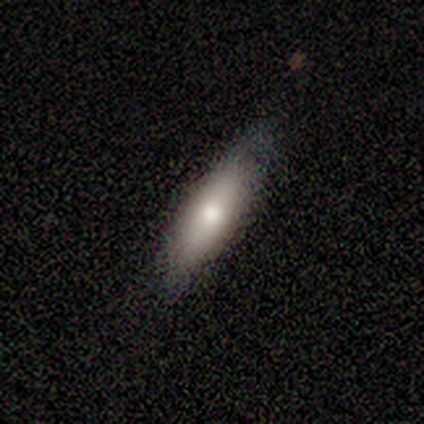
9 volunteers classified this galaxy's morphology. Smooth or featured?
  - smooth: 56% *
  - featured or disk: 44%
  - star or artifact: 0%
How rounded?
  - cigar-shaped: 60% *
  - in between: 40%
  - round: 0%
Merging?
  - none: 78% *
  - minor disturbance: 22%
  - major disturbance: 0%
  - merger: 0%